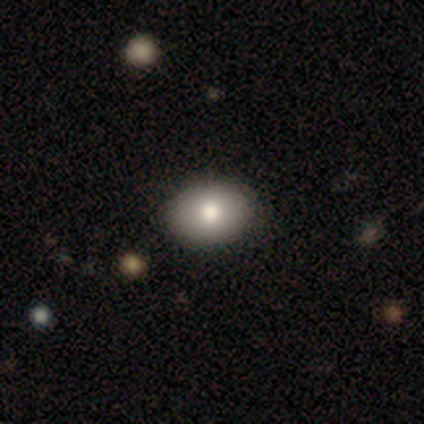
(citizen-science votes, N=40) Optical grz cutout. It shows a smooth galaxy with no disk features (85%) that is in between round and cigar-shaped (74%). Merging: none (90%).